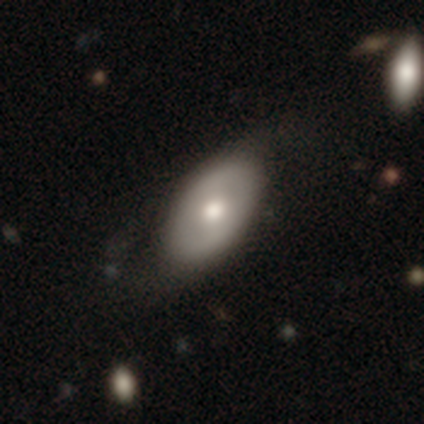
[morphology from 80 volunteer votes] A smooth galaxy with no disk features (64%) that is in between round and cigar-shaped (90%). Merging: none (29%).